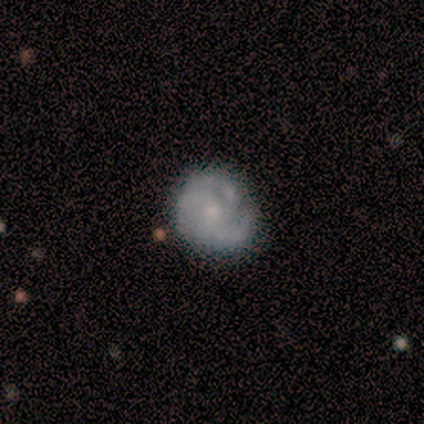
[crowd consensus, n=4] Smooth or featured: featured or disk — 75% (smooth — 25%)
Edge-on disk: no — 100%
Bar: no — 100%
Spiral arms: yes — 100%
Spiral winding: tight — 67% (medium — 33%)
Spiral arm count: 3 — 100%
Bulge size: moderate — 67% (small — 33%)
Merging: none — 75% (minor disturbance — 25%)